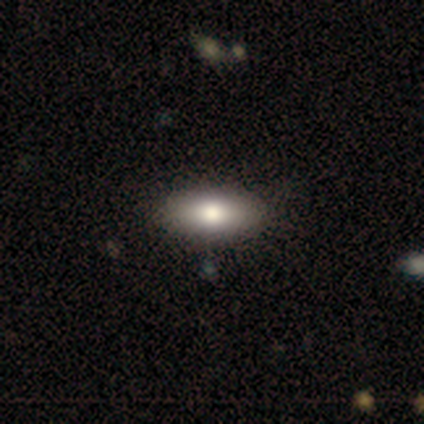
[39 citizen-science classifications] smooth-or-featured: smooth: 79% | featured or disk: 15% | star or artifact: 5%
  how-rounded: in between: 90% | cigar-shaped: 10% | round: 0%
  merging: none: 92% | minor disturbance: 0% | major disturbance: 0% | merger: 0%